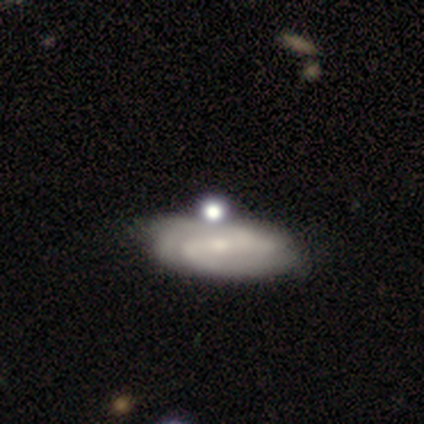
Smooth or featured? 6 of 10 (60%) said featured or disk. Edge-on disk? 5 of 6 (83%) said no. Bar? 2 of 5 (40%, tied with weak) said strong. Spiral arms? 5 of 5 (100%) said yes. Spiral winding? 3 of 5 (60%) said tight. Spiral arm count? 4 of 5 (80%) said 2. Bulge size? 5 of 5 (100%) said small. Merging? 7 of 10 (70%) said none.